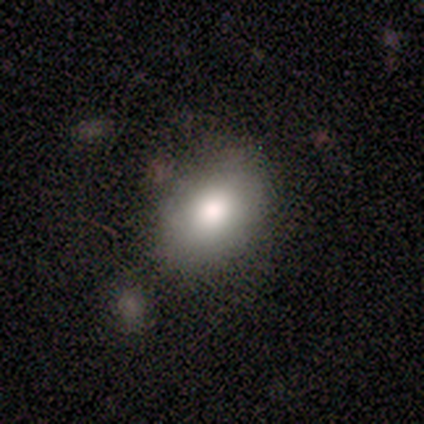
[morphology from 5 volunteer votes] smooth_or_featured: smooth (p=0.60) [alt: featured or disk p=0.20]
how_rounded: in between (p=1.00)
merging: none (p=0.75) [alt: major disturbance p=0.25]